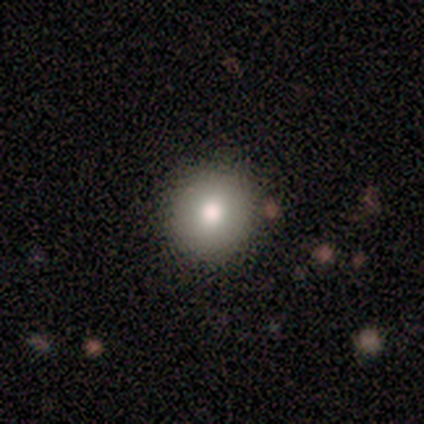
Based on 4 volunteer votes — Q: Smooth or featured?
A: smooth (75%); runner-up: featured or disk (25%)
Q: How rounded?
A: round (100%)
Q: Merging?
A: none (100%)